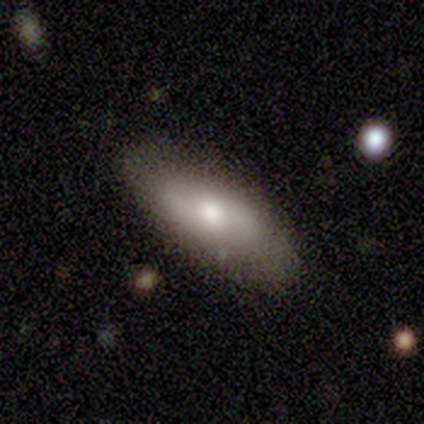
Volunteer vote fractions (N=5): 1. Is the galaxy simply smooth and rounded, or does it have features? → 60% smooth, 40% featured or disk, 0% star or artifact.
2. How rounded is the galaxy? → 67% in between, 33% cigar-shaped, 0% round.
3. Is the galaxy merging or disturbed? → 60% none, 20% minor disturbance, 20% merger, 0% major disturbance.